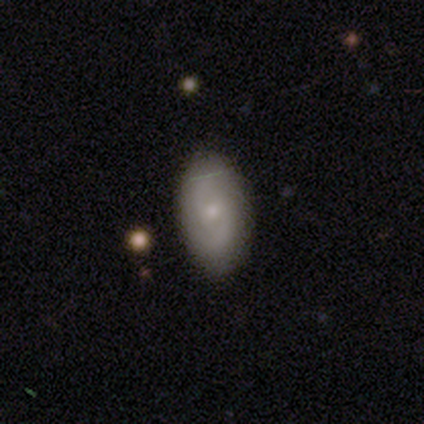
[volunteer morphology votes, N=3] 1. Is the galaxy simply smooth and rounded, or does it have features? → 100% featured or disk, 0% smooth, 0% star or artifact.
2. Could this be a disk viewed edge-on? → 100% no, 0% yes.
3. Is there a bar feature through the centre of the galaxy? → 67% no, 33% weak, 0% strong.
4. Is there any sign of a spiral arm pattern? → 100% yes, 0% no.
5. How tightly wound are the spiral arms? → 67% medium, 33% tight, 0% loose.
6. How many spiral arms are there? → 67% 2, 33% can't tell, 0% 1, 0% 3, 0% 4, 0% more than 4.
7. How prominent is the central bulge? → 67% small, 33% moderate, 0% dominant, 0% large, 0% none.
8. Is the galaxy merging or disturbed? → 100% none, 0% minor disturbance, 0% major disturbance, 0% merger.